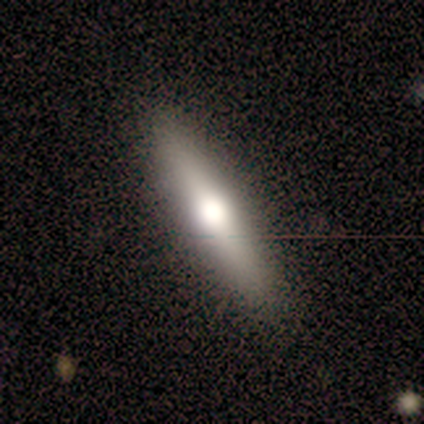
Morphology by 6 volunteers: smooth-or-featured: smooth: 67% | featured or disk: 33% | star or artifact: 0%
  how-rounded: cigar-shaped: 75% | in between: 25% | round: 0%
  merging: none: 83% | minor disturbance: 17% | major disturbance: 0% | merger: 0%